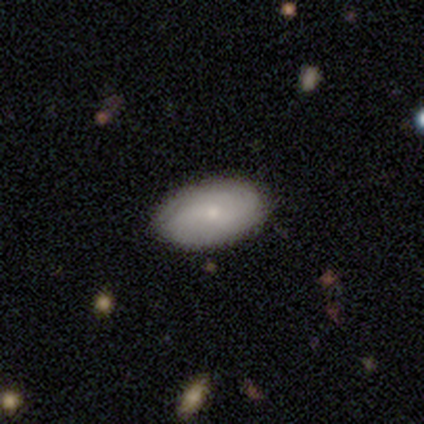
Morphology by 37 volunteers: Smooth or featured: smooth — 59% (featured or disk — 38%)
How rounded: in between — 100%
Merging: none — 61% (minor disturbance — 14%)